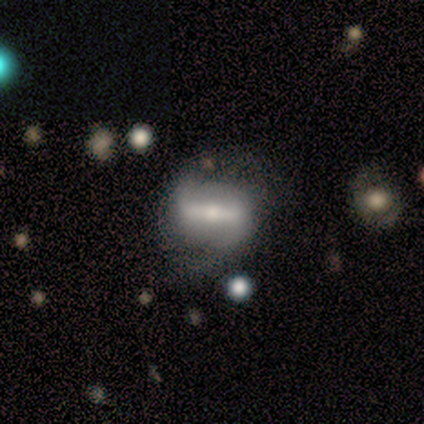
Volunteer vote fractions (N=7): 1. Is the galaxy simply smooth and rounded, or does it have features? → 86% featured or disk, 14% smooth, 0% star or artifact.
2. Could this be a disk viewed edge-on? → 100% no, 0% yes.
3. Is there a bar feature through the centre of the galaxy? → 100% strong, 0% weak, 0% no.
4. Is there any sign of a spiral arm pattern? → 83% yes, 17% no.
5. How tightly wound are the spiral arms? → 60% loose, 40% medium, 0% tight.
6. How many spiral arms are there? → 100% 2, 0% 1, 0% 3, 0% 4, 0% more than 4, 0% can't tell.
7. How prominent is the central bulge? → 67% moderate, 17% large, 17% small, 0% dominant, 0% none.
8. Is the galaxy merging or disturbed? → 43% none (tied), 43% minor disturbance (tied), 14% major disturbance, 0% merger.